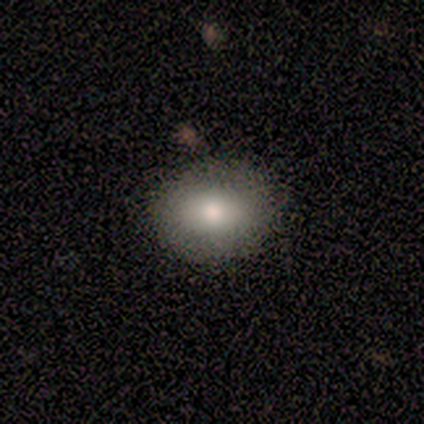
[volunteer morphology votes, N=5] Q: Smooth or featured?
A: smooth (60%); runner-up: featured or disk (40%)
Q: How rounded?
A: in between (67%); runner-up: round (33%)
Q: Merging?
A: none (100%)